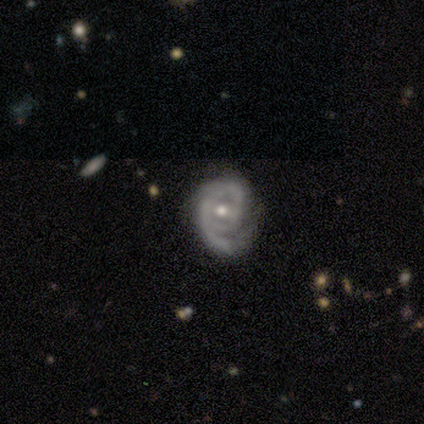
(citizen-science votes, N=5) Morphology: type=featured or disk (100%); edge-on=no (100%); bar=no (60%); spiral arms=yes (100%); winding=medium (60%); arm count=2 (60%); bulge=moderate (60%); merging=minor disturbance (60%).